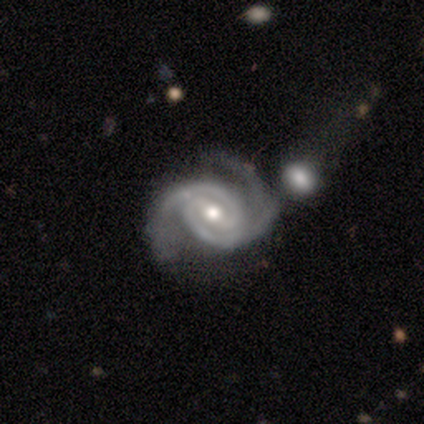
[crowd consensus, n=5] Smooth or featured?
  - featured or disk: 100% *
  - smooth: 0%
  - star or artifact: 0%
Edge-on disk?
  - no: 100% *
  - yes: 0%
Bar?
  - weak: 40% * (tied)
  - no: 40% * (tied)
  - strong: 20%
Spiral arms?
  - yes: 100% *
  - no: 0%
Spiral winding?
  - tight: 40% * (tied)
  - medium: 40% * (tied)
  - loose: 20%
Spiral arm count?
  - 2: 80% *
  - 3: 20%
  - 1: 0%
  - 4: 0%
  - more than 4: 0%
  - can't tell: 0%
Bulge size?
  - moderate: 80% *
  - small: 20%
  - dominant: 0%
  - large: 0%
  - none: 0%
Merging?
  - none: 100% *
  - minor disturbance: 0%
  - major disturbance: 0%
  - merger: 0%